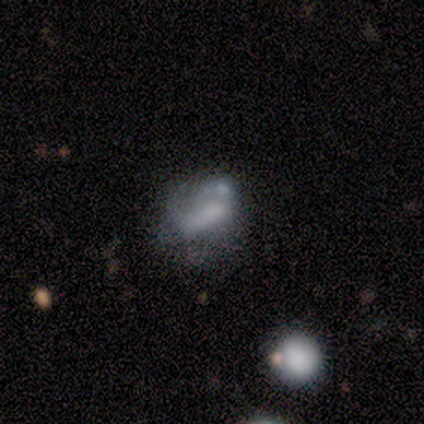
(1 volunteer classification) smooth_or_featured: featured or disk (p=1.00)
disk_edge_on: yes (p=1.00)
edge_on_bulge: none (p=1.00)
merging: none (p=1.00)